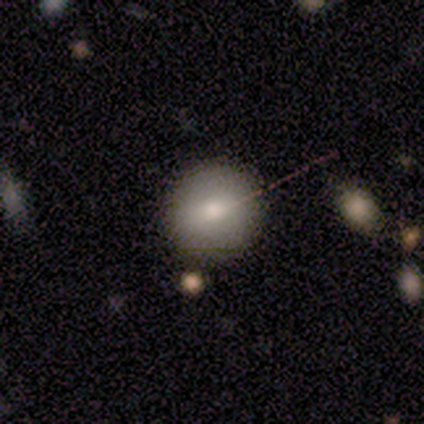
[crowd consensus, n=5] smooth-or-featured: smooth: 80% | star or artifact: 20% | featured or disk: 0%
  how-rounded: round: 100% | in between: 0% | cigar-shaped: 0%
  merging: none: 100% | minor disturbance: 0% | major disturbance: 0% | merger: 0%